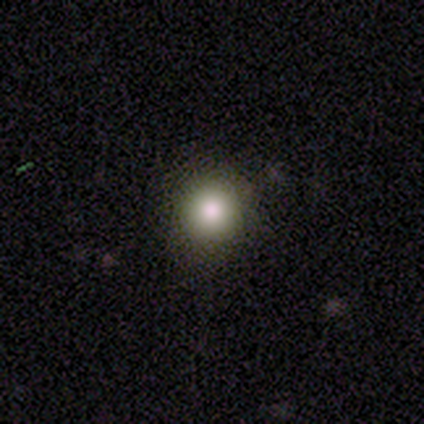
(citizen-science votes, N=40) Smooth or featured? smooth (78%)
How rounded? round (97%)
Merging? none (94%)